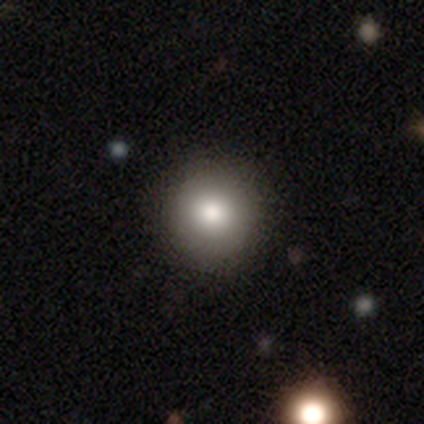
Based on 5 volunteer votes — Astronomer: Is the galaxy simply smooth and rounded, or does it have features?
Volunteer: smooth — 60% (runner-up: star or artifact, 40%).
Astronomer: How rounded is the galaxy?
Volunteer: round — 100%.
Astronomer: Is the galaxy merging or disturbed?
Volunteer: none — 100%.